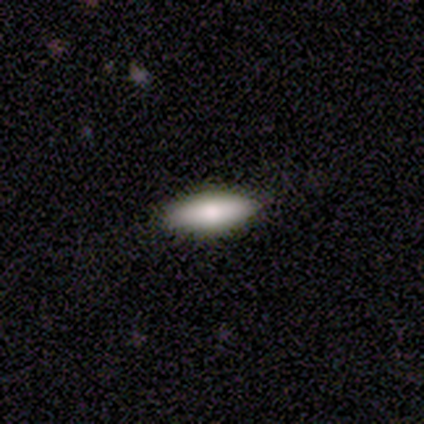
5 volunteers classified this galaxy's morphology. smooth 60%, star or artifact 40%, featured or disk 0%. Down the decision tree: how rounded — cigar-shaped (67%); merging — none (100%).